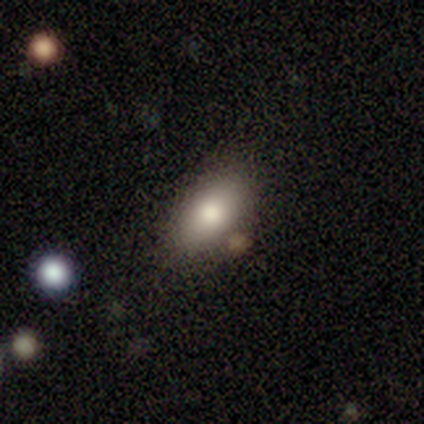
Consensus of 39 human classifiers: Smooth or featured? 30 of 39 (77%) said smooth. How rounded? 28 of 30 (93%) said in between. Merging? 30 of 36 (83%) said none.